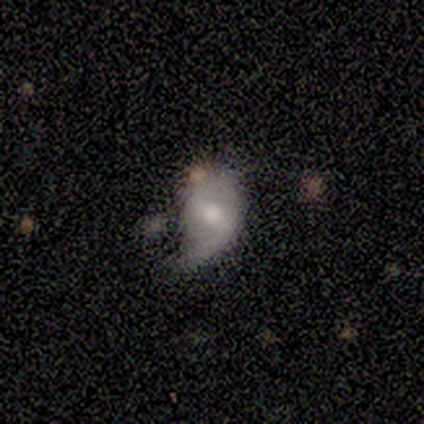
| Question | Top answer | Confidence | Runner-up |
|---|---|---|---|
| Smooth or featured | featured or disk | 60% | star or artifact (40%) |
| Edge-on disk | no | 100% | — |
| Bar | weak | 67% | strong (33%) |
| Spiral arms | yes | 67% | no (33%) |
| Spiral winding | loose | 100% | — |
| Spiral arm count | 2 | 50% | tied: can't tell (50%) |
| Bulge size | small | 67% | large (33%) |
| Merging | minor disturbance | 67% | major disturbance (33%) |